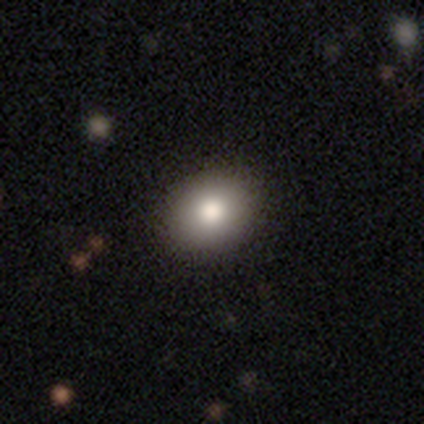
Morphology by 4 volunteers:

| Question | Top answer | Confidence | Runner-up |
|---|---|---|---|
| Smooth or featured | smooth | 100% | — |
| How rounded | round | 50% | tied: in between (50%) |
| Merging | none | 100% | — |